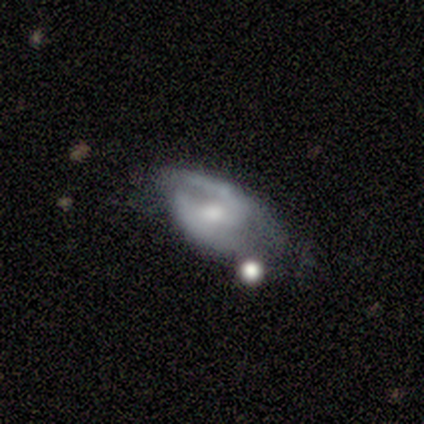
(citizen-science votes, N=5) Smooth or featured? 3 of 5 (60%) said featured or disk. Edge-on disk? 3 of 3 (100%) said no. Bar? 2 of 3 (67%) said weak. Spiral arms? 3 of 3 (100%) said yes. Spiral winding? 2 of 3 (67%) said loose. Spiral arm count? 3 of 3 (100%) said 2. Bulge size? 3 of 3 (100%) said moderate. Merging? 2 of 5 (40%, tied with major disturbance) said none.